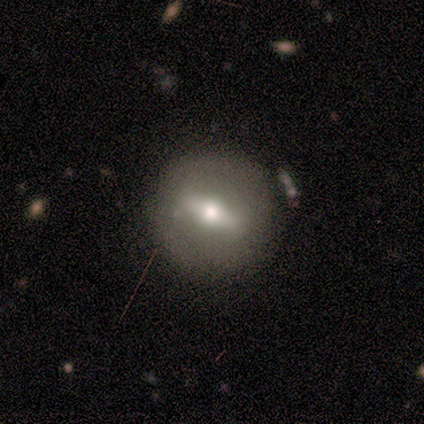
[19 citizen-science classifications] Smooth or featured? 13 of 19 (68%) said featured or disk. Edge-on disk? 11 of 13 (85%) said no. Bar? 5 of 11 (45%, tied with weak) said strong. Spiral arms? 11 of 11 (100%) said no. Bulge size? 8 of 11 (73%) said moderate. Merging? 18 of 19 (95%) said none.